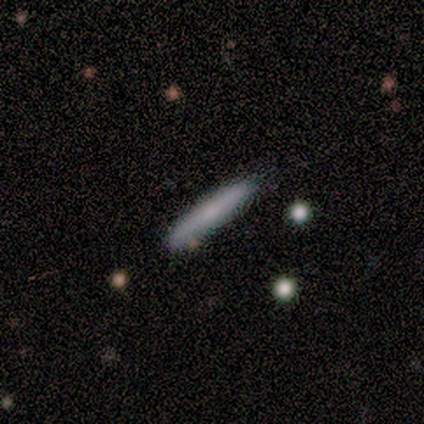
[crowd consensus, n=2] Smooth or featured?
  - smooth: 100% *
  - featured or disk: 0%
  - star or artifact: 0%
How rounded?
  - cigar-shaped: 100% *
  - round: 0%
  - in between: 0%
Merging?
  - none: 100% *
  - minor disturbance: 0%
  - major disturbance: 0%
  - merger: 0%